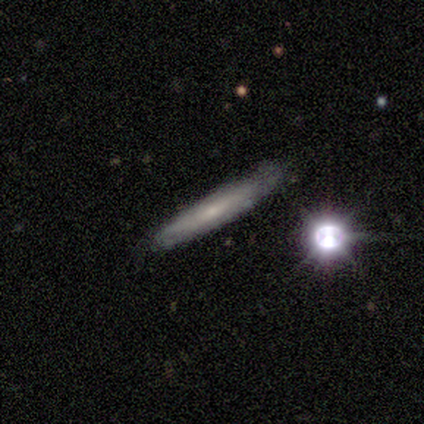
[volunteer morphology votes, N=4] smooth_or_featured: smooth (p=0.50) [tied with: featured or disk p=0.50]
how_rounded: cigar-shaped (p=1.00)
merging: none (p=1.00)